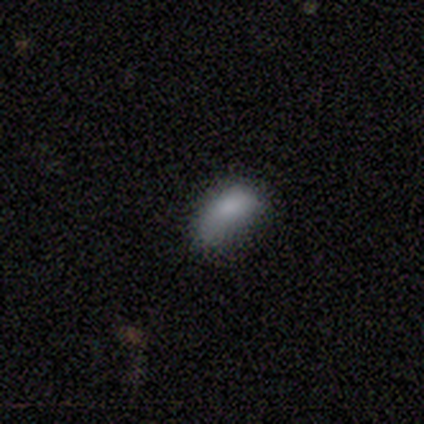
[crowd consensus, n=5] A smooth galaxy with no disk features (100%) that is in between round and cigar-shaped (80%). Merging: minor disturbance (80%).